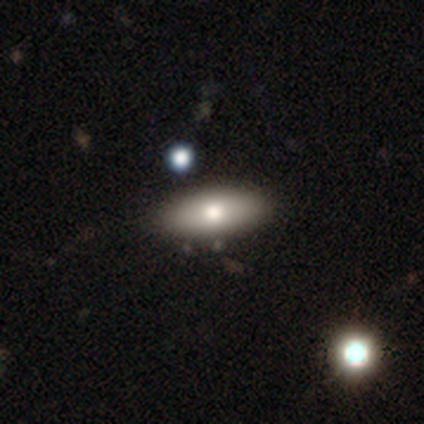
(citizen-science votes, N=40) Volunteers were most divided on "smooth or featured": smooth: 55%, featured or disk: 38%, star or artifact: 8%. More confident: how rounded — in between (82%); merging — none (70%).